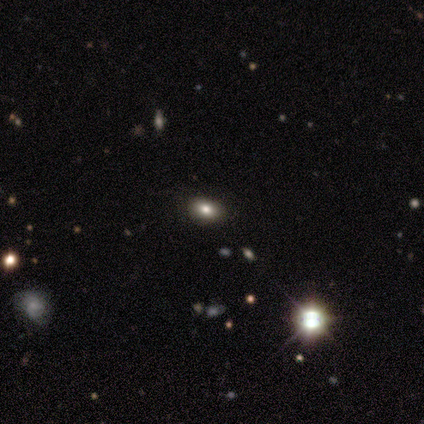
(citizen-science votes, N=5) smooth_or_featured: smooth (p=0.80) [alt: star or artifact p=0.20]
how_rounded: round (p=0.50) [tied with: in between p=0.50]
merging: none (p=0.75) [alt: major disturbance p=0.25]